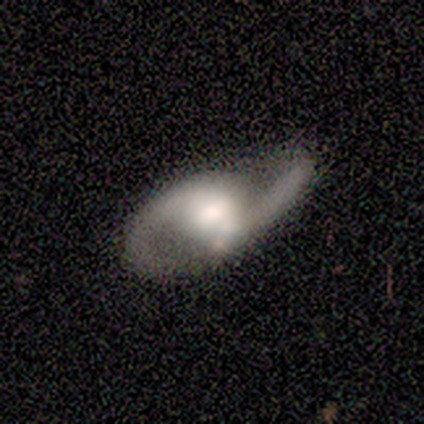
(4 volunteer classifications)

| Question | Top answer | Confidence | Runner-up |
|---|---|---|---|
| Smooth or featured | featured or disk | 75% | smooth (25%) |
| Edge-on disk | no | 100% | — |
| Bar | weak | 67% | no (33%) |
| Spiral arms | yes | 100% | — |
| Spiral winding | loose | 100% | — |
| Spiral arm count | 2 | 100% | — |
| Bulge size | large | 67% | moderate (33%) |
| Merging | minor disturbance | 50% | none (25%) |